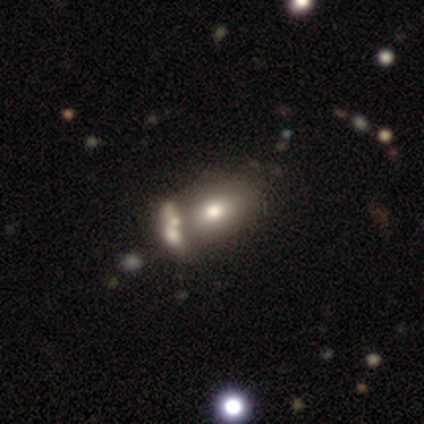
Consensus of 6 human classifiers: Smooth or featured?
  - smooth: 67% *
  - star or artifact: 33%
  - featured or disk: 0%
How rounded?
  - in between: 100% *
  - round: 0%
  - cigar-shaped: 0%
Merging?
  - none: 50% *
  - minor disturbance: 25%
  - merger: 25%
  - major disturbance: 0%